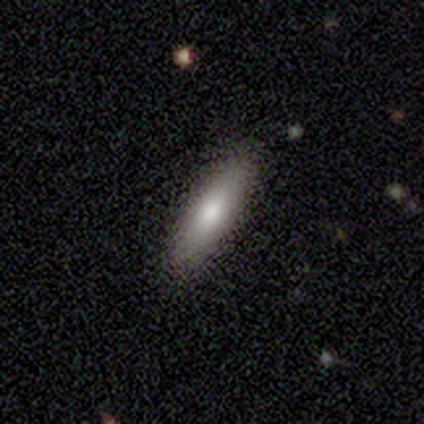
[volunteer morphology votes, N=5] smooth_or_featured: smooth (p=0.60) [alt: featured or disk p=0.20]
how_rounded: in between (p=0.67) [alt: cigar-shaped p=0.33]
merging: none (p=1.00)